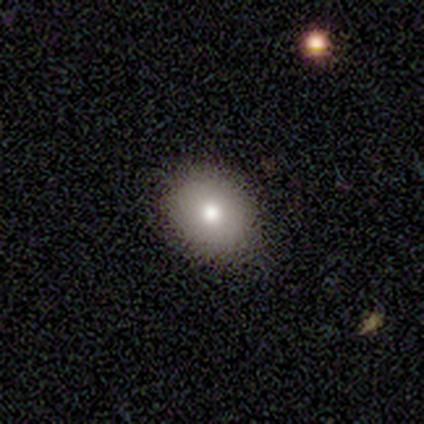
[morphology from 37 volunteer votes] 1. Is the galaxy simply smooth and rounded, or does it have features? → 76% smooth, 16% star or artifact, 8% featured or disk.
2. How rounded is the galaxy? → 54% round, 46% in between, 0% cigar-shaped.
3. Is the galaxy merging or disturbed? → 77% none, 23% minor disturbance, 0% major disturbance, 0% merger.